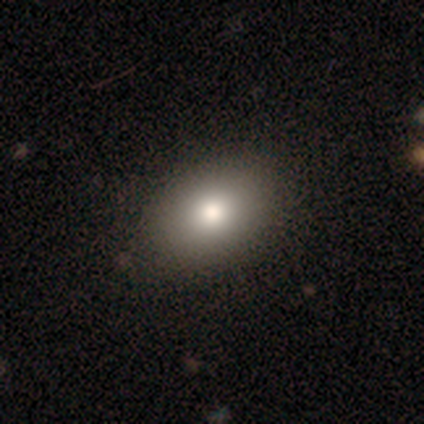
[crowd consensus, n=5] A smooth galaxy with no disk features (80%) that is round (50%, tied with in between). Merging: none (80%).